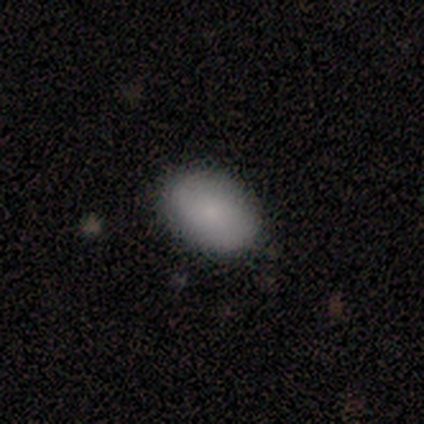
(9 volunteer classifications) smooth_or_featured: smooth (p=0.78) [alt: star or artifact p=0.22]
how_rounded: in between (p=0.86) [alt: round p=0.14]
merging: none (p=0.71) [alt: minor disturbance p=0.29]